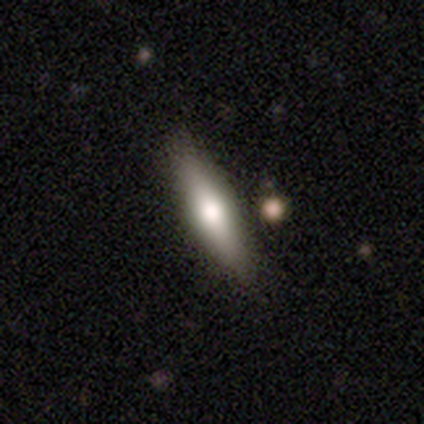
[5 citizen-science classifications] Smooth or featured?
  - smooth: 60% *
  - featured or disk: 40%
  - star or artifact: 0%
How rounded?
  - cigar-shaped: 100% *
  - round: 0%
  - in between: 0%
Merging?
  - none: 100% *
  - minor disturbance: 0%
  - major disturbance: 0%
  - merger: 0%